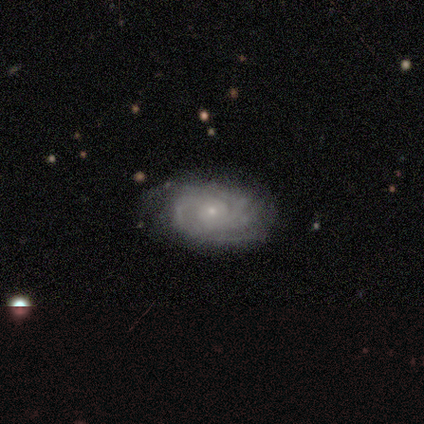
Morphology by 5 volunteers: Q: Smooth or featured?
A: featured or disk (100%)
Q: Edge-on disk?
A: no (100%)
Q: Bar?
A: no (100%)
Q: Spiral arms?
A: yes (100%)
Q: Spiral winding?
A: tight (60%); runner-up: medium (20%)
Q: Spiral arm count?
A: can't tell (60%); runner-up: 3 (20%)
Q: Bulge size?
A: small (80%); runner-up: moderate (20%)
Q: Merging?
A: none (100%)